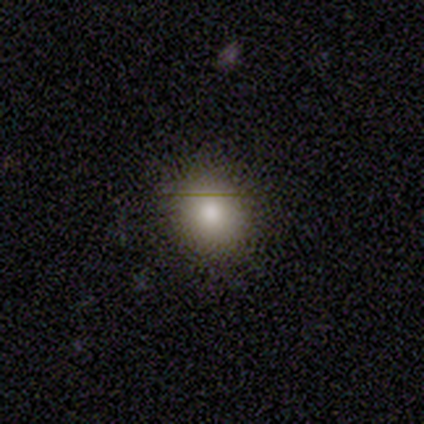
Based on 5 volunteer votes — This is clearly a smooth galaxy (80%). How rounded: clearly round (100%). Merging: clearly none (100%).